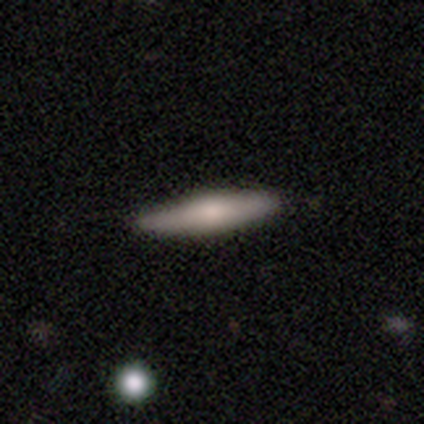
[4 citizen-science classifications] Smooth or featured?
  - smooth: 75% *
  - featured or disk: 25%
  - star or artifact: 0%
How rounded?
  - cigar-shaped: 100% *
  - round: 0%
  - in between: 0%
Merging?
  - none: 100% *
  - minor disturbance: 0%
  - major disturbance: 0%
  - merger: 0%